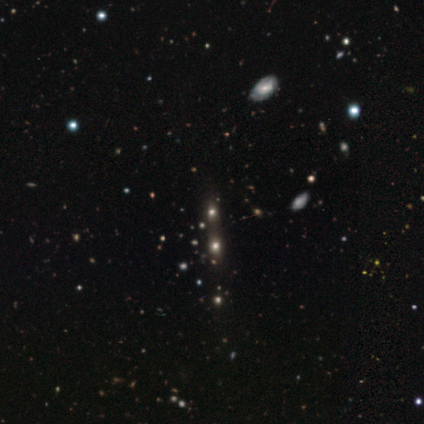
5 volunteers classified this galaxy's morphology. Q: Smooth or featured?
A: smooth (80%); runner-up: star or artifact (20%)
Q: How rounded?
A: round (50%); tied with: in between (50%)
Q: Merging?
A: none (50%); runner-up: minor disturbance (25%)